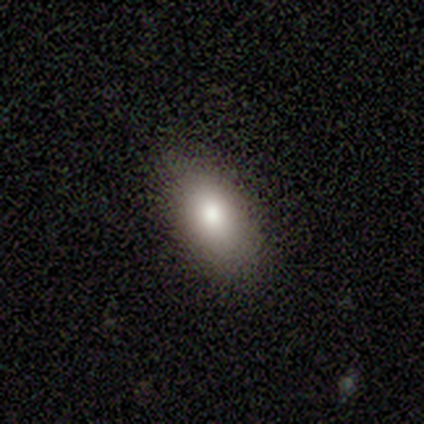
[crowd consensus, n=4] Smooth or featured: smooth — 100%
How rounded: in between — 100%
Merging: none — 100%